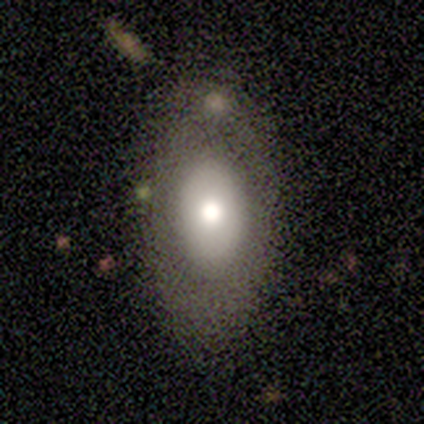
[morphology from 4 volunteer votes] Smooth or featured? smooth (50%)
How rounded? in between (100%)
Merging? none (67%)